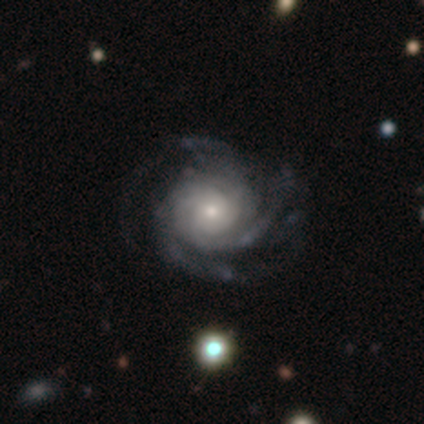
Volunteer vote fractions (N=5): A featured or disk galaxy (80%) with a weak bar (50%), 3 (100%) tight (50%, tied with medium) spiral arms (100%) and a small central bulge (50%).

Vote fractions:
- Smooth or featured? featured or disk: 80% / smooth: 20% / star or artifact: 0%
- Edge-on disk? no: 100% / yes: 0%
- Bar? weak: 50% / strong: 25% / no: 25%
- Spiral arms? yes: 100% / no: 0%
- Spiral winding? tight: 50% (tied) / medium: 50% (tied) / loose: 0%
- Spiral arm count? 3: 100% / 1: 0% / 2: 0% / 4: 0% / more than 4: 0% / can't tell: 0%
- Bulge size? small: 50% / large: 25% / moderate: 25% / dominant: 0% / none: 0%
- Merging? none: 60% / minor disturbance: 20% / major disturbance: 20% / merger: 0%